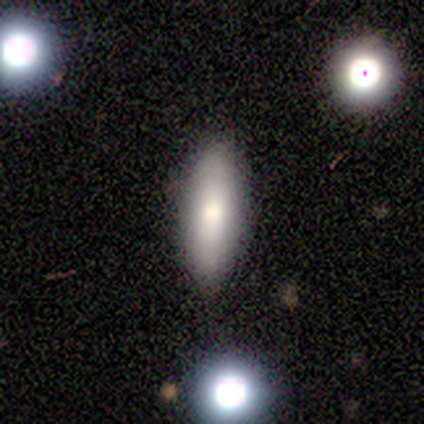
smooth 100%, featured or disk 0%, star or artifact 0%. Down the decision tree: how rounded — in between (50%, tied with cigar-shaped); merging — none (100%).